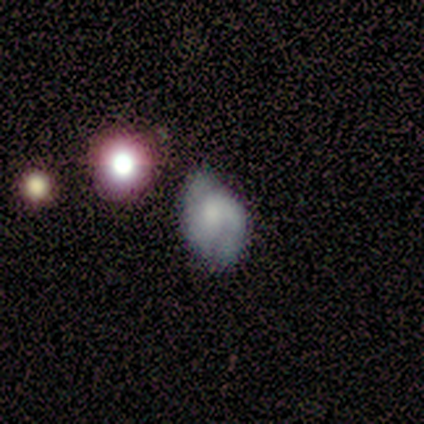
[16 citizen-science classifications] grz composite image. It shows a featured or disk galaxy (62%) with no bar (70%), 2 (100%) medium (71%) spiral arms (70%) and a small central bulge (50%). Merging: minor disturbance (50%).